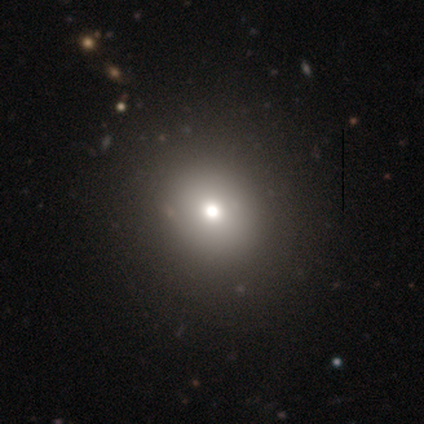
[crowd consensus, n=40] smooth-or-featured: smooth: 78% | star or artifact: 15% | featured or disk: 8%
  how-rounded: round: 87% | in between: 13% | cigar-shaped: 0%
  merging: none: 65% | minor disturbance: 6% | major disturbance: 0% | merger: 0%